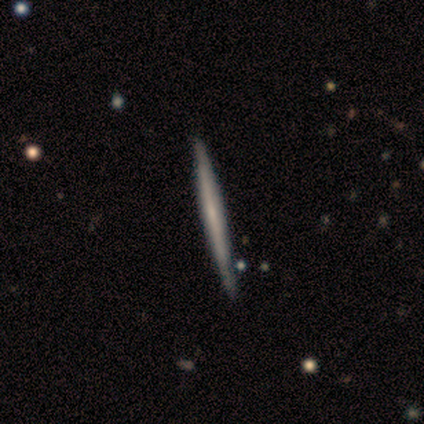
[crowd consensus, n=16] smooth 56%, featured or disk 44%, star or artifact 0%. Down the decision tree: how rounded — cigar-shaped (100%); merging — none (94%).